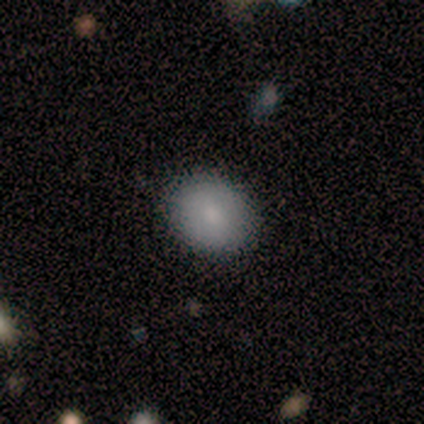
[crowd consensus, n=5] Smooth or featured?
  - smooth: 80% *
  - featured or disk: 20%
  - star or artifact: 0%
How rounded?
  - round: 75% *
  - in between: 25%
  - cigar-shaped: 0%
Merging?
  - none: 100% *
  - minor disturbance: 0%
  - major disturbance: 0%
  - merger: 0%